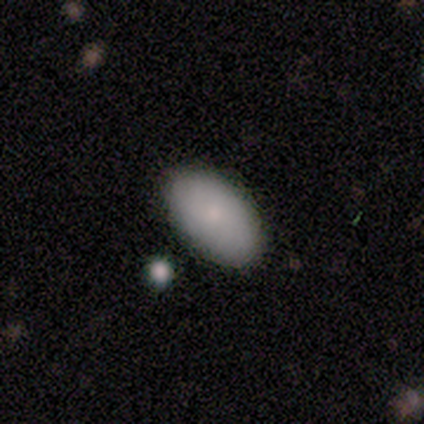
smooth-or-featured: smooth: 100% | featured or disk: 0% | star or artifact: 0%
  how-rounded: in between: 100% | round: 0% | cigar-shaped: 0%
  merging: none: 100% | minor disturbance: 0% | major disturbance: 0% | merger: 0%